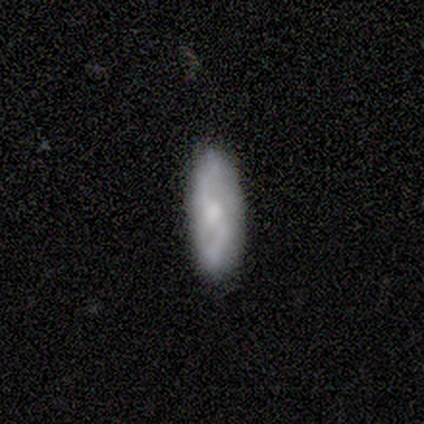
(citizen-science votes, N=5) Smooth or featured? smooth (60%)
How rounded? in between (67%)
Merging? minor disturbance (60%)